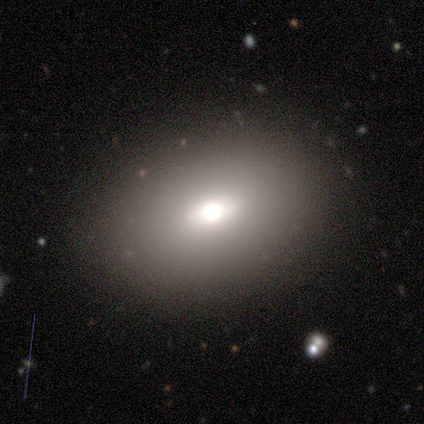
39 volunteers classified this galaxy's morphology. Smooth or featured: smooth — 92% (featured or disk — 8%)
How rounded: in between — 83% (round — 17%)
Merging: none — 95% (minor disturbance — 3%)